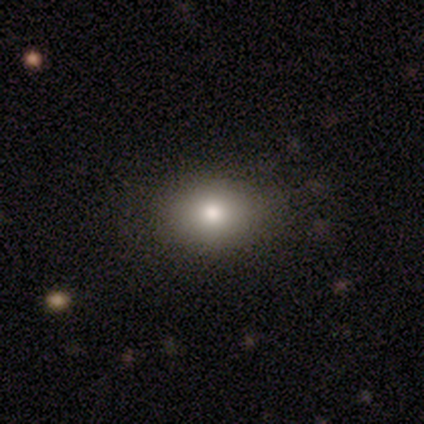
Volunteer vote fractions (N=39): smooth_or_featured: smooth (p=0.77) [alt: featured or disk p=0.21]
how_rounded: in between (p=0.53) [alt: round p=0.47]
merging: none (p=0.89) [alt: minor disturbance p=0.11]